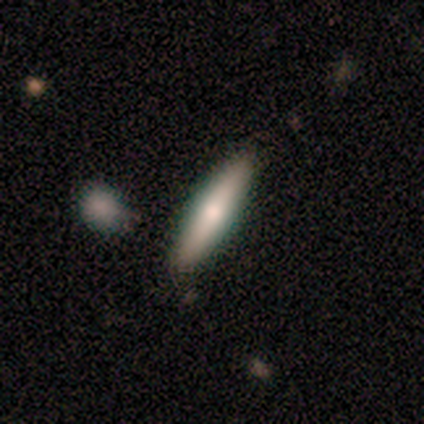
Smooth or featured? 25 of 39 (64%) said smooth. How rounded? 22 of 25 (88%) said cigar-shaped. Merging? 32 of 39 (82%) said none.